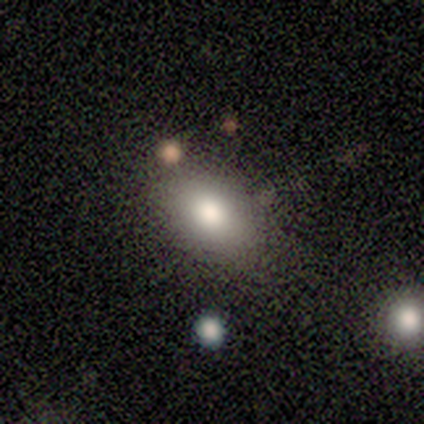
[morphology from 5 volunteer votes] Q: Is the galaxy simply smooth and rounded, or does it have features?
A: smooth — 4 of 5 (80%).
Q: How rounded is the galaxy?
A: in between — 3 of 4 (75%).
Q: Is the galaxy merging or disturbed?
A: none — 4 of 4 (100%).